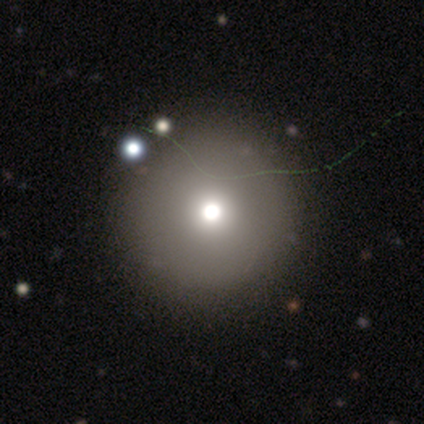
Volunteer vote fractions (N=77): Smooth or featured: smooth — 64% (featured or disk — 18%)
How rounded: round — 98% (in between — 2%)
Merging: none — 59% (merger — 5%)